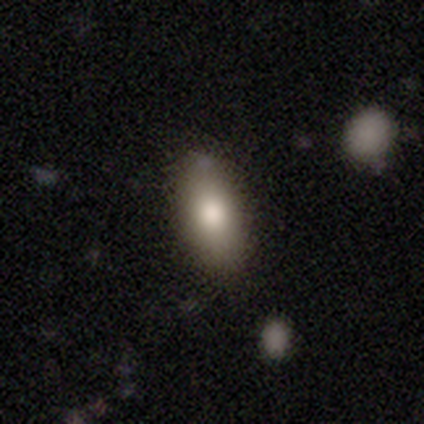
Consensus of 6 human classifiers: Volunteers were most divided on "smooth or featured": smooth: 50%, featured or disk: 33%, star or artifact: 17%. More confident: how rounded — in between (100%); merging — none (80%).